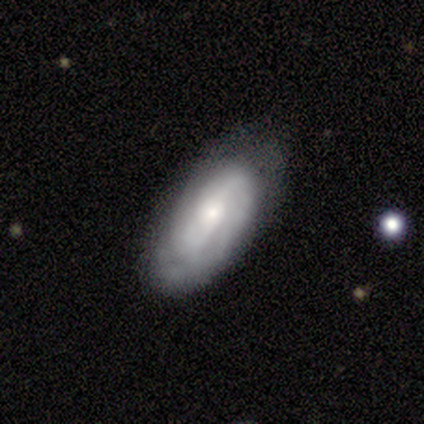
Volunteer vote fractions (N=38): A featured or disk galaxy (68%) with no bar (48%), tight (60%) spiral arms (80%) and a small central bulge (60%). Merging: none (68%).